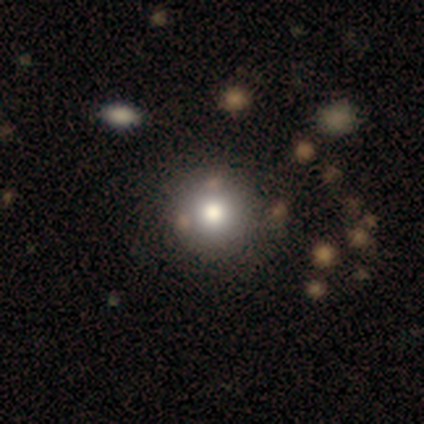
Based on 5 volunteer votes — This appears to be a smooth galaxy with no disk features (80%) that is round (100%). Merging: none (100%).